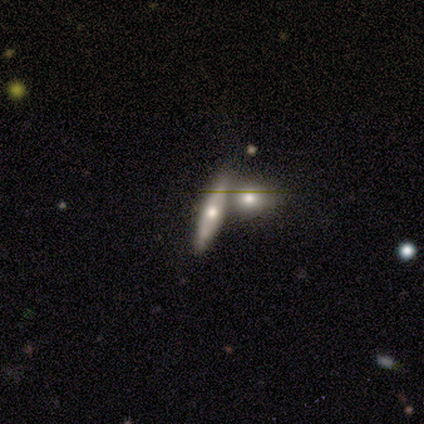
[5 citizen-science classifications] This appears to be a smooth galaxy with no disk features (60%) that is cigar-shaped (67%). Merging: none (40%, tied with minor disturbance).